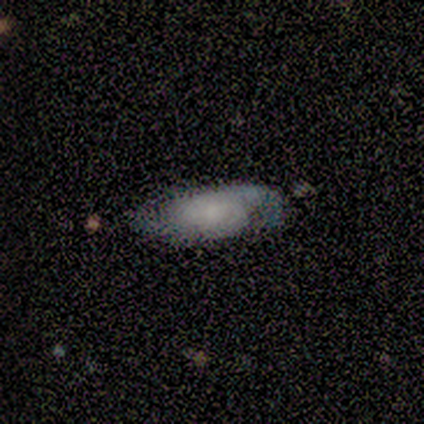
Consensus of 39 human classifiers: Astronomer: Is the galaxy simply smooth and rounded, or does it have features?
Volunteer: featured or disk — 51% (runner-up: smooth, 38%).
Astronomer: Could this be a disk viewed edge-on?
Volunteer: no — 100%.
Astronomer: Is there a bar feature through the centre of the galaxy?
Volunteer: no — 65%.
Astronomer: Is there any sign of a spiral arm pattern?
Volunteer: yes — 95%.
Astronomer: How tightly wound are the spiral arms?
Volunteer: medium — 47% (runner-up: loose, 32%).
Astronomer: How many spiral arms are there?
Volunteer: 2 — 74%.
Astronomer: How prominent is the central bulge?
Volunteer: none — 55%.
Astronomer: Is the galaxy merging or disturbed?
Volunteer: none — 57% (runner-up: minor disturbance, 34%).